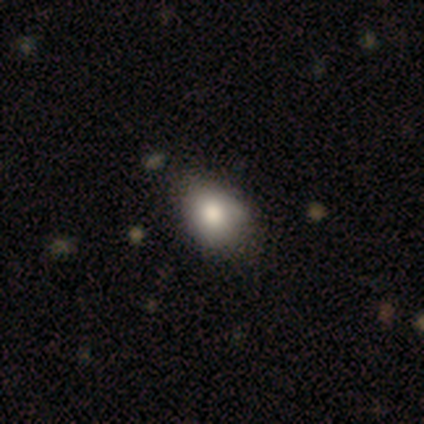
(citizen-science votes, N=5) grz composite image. It shows a smooth galaxy with no disk features (80%) that is in between round and cigar-shaped (75%). Merging: none (80%).